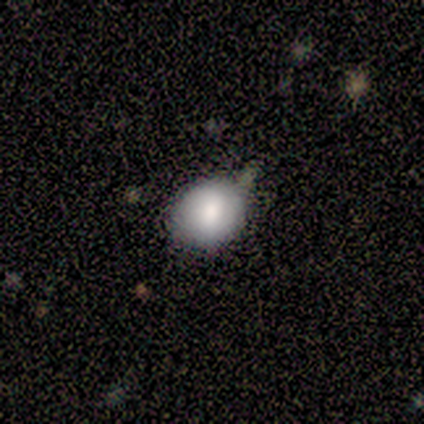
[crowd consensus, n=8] Smooth or featured: smooth — 75% (featured or disk — 12%)
How rounded: round — 50% (tied with in between — 50%)
Merging: none — 71% (minor disturbance — 29%)